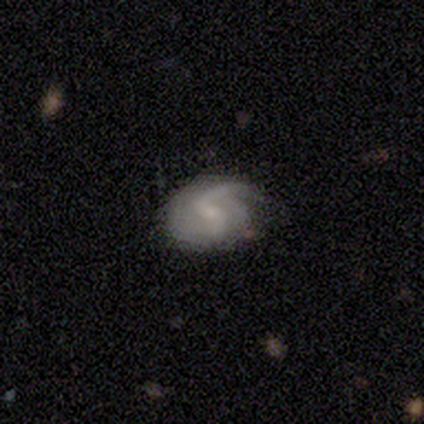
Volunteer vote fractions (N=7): Smooth or featured?
  - featured or disk: 86% *
  - smooth: 14%
  - star or artifact: 0%
Edge-on disk?
  - no: 100% *
  - yes: 0%
Bar?
  - weak: 83% *
  - no: 17%
  - strong: 0%
Spiral arms?
  - yes: 83% *
  - no: 17%
Spiral winding?
  - loose: 60% *
  - medium: 40%
  - tight: 0%
Spiral arm count?
  - 2: 80% *
  - 1: 20%
  - 3: 0%
  - 4: 0%
  - more than 4: 0%
  - can't tell: 0%
Bulge size?
  - small: 100% *
  - dominant: 0%
  - large: 0%
  - moderate: 0%
  - none: 0%
Merging?
  - none: 57% *
  - minor disturbance: 43%
  - major disturbance: 0%
  - merger: 0%